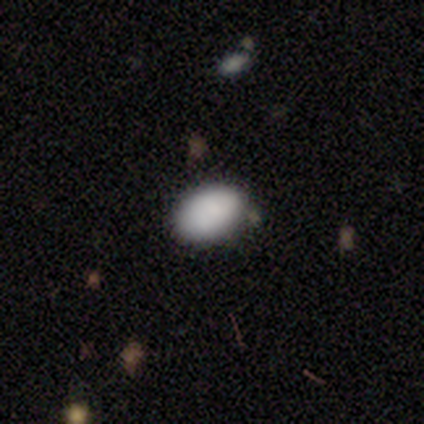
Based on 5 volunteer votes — Smooth or featured? 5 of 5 (100%) said smooth. How rounded? 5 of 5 (100%) said in between. Merging? 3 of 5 (60%) said none.